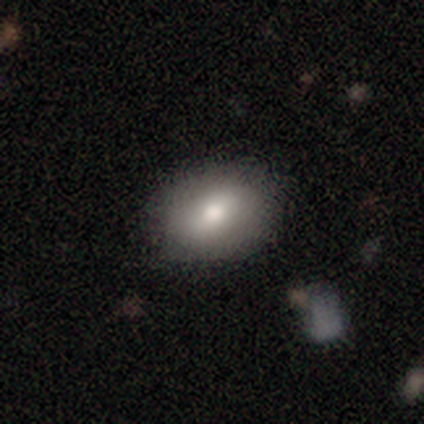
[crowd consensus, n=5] A smooth galaxy with no disk features (80%) that is in between round and cigar-shaped (75%).

Vote fractions:
- Smooth or featured? smooth: 80% / featured or disk: 20% / star or artifact: 0%
- How rounded? in between: 75% / round: 25% / cigar-shaped: 0%
- Merging? none: 100% / minor disturbance: 0% / major disturbance: 0% / merger: 0%